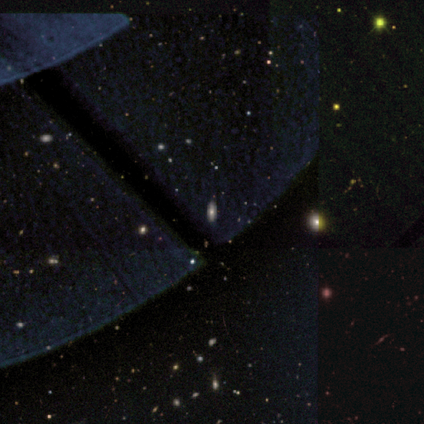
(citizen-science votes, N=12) Smooth or featured? star or artifact (50%)